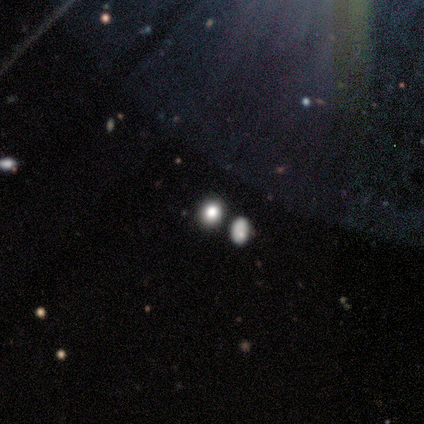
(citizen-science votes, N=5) A star or artifact, not a galaxy (80%).

Vote fractions:
- Smooth or featured? star or artifact: 80% / smooth: 20% / featured or disk: 0%